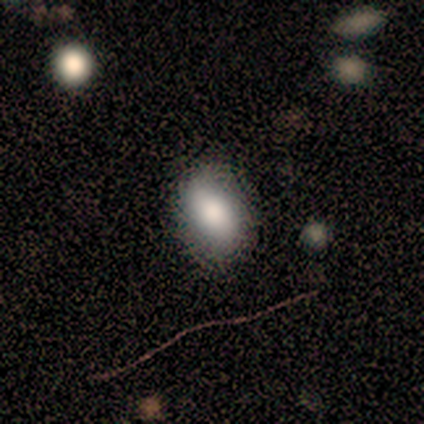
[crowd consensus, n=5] Smooth or featured? 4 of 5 (80%) said smooth. How rounded? 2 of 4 (50%, tied with in between) said round. Merging? 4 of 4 (100%) said none.